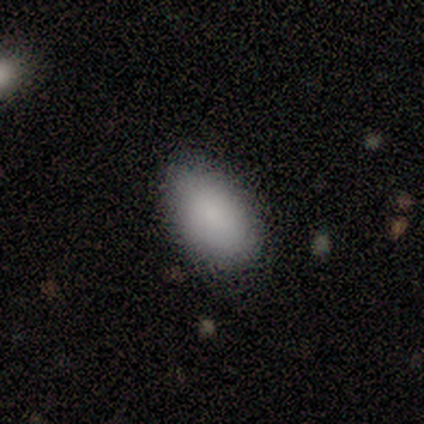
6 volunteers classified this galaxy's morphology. Smooth or featured? 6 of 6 (100%) said smooth. How rounded? 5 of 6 (83%) said in between. Merging? 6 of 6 (100%) said none.